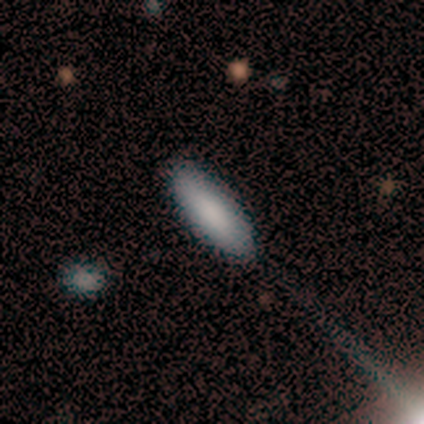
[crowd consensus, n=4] smooth 100%, featured or disk 0%, star or artifact 0%. Down the decision tree: how rounded — cigar-shaped (100%); merging — none (100%).